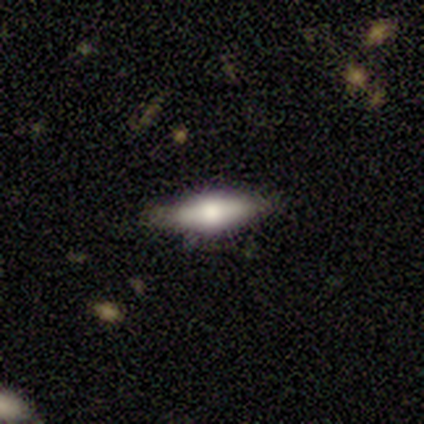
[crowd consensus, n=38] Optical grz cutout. It shows a smooth galaxy with no disk features (47%, tied with featured or disk) that is cigar-shaped (56%). Merging: none (83%).